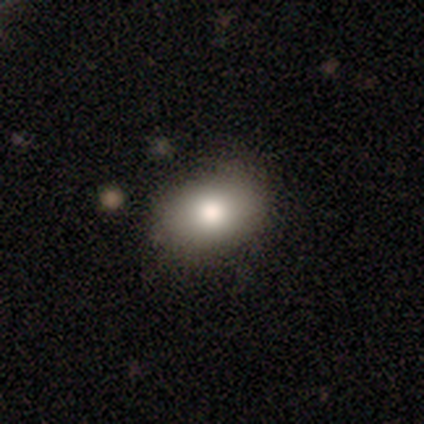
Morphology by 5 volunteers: This appears to be a smooth galaxy with no disk features (80%) that is in between round and cigar-shaped (100%). Merging: none (50%, tied with minor disturbance).